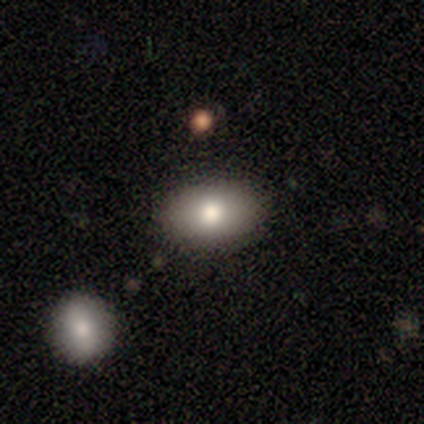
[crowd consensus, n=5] A smooth galaxy with no disk features (100%) that is in between round and cigar-shaped (100%).

Vote fractions:
- Smooth or featured? smooth: 100% / featured or disk: 0% / star or artifact: 0%
- How rounded? in between: 100% / round: 0% / cigar-shaped: 0%
- Merging? none: 100% / minor disturbance: 0% / major disturbance: 0% / merger: 0%